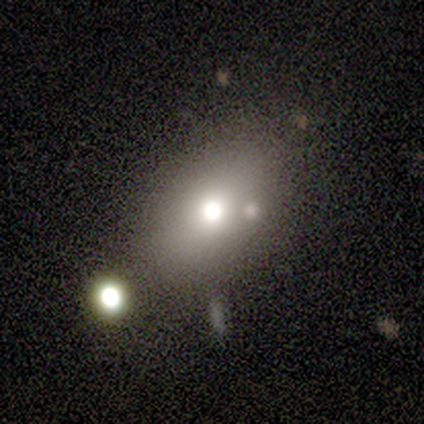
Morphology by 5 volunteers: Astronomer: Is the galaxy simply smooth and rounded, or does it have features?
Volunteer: smooth — 80%.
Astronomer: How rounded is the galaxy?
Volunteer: in between — 100%.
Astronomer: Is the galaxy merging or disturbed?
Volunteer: none — 75%.